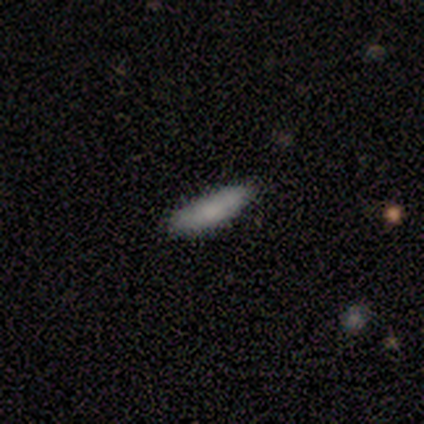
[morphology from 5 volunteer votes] Smooth or featured: smooth — 80% (featured or disk — 20%)
How rounded: cigar-shaped — 75% (in between — 25%)
Merging: none — 60% (minor disturbance — 40%)